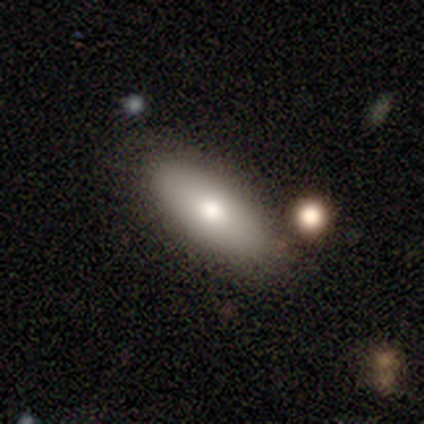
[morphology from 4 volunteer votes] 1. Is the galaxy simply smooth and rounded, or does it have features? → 75% smooth, 25% featured or disk, 0% star or artifact.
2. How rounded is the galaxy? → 100% in between, 0% round, 0% cigar-shaped.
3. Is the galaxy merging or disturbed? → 100% none, 0% minor disturbance, 0% major disturbance, 0% merger.